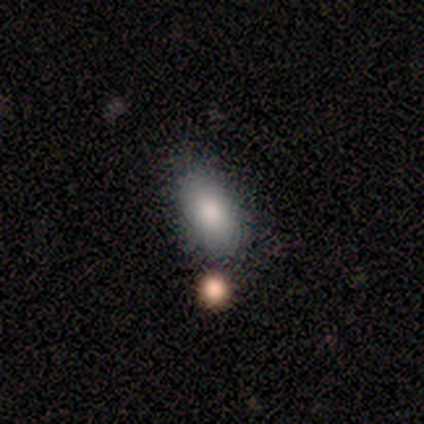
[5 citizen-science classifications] Morphology: type=smooth (100%); roundness=in between (100%); merging=none (80%).